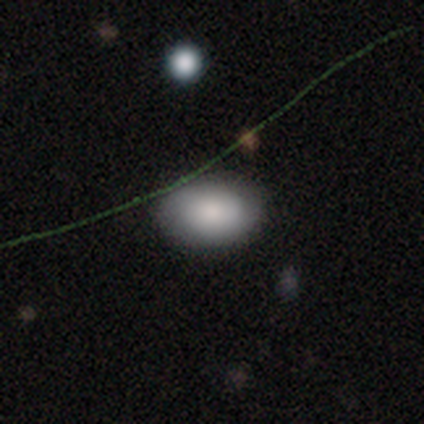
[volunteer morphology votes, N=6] Overall: smooth (50%; star or artifact 33%). How rounded: in between (100%). Merging: none (50%; minor disturbance 25%).